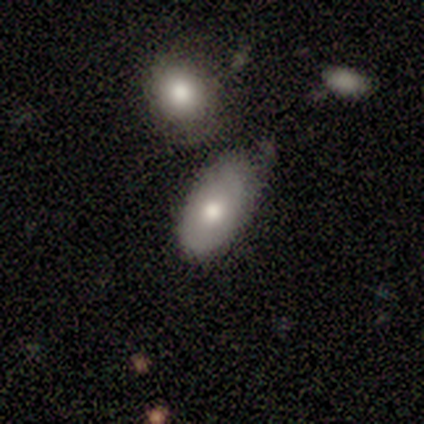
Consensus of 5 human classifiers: Q: Smooth or featured?
A: smooth (60%); runner-up: featured or disk (40%)
Q: How rounded?
A: in between (67%); runner-up: cigar-shaped (33%)
Q: Merging?
A: none (60%); runner-up: minor disturbance (20%)